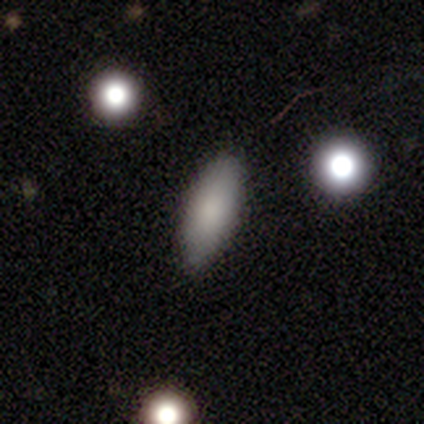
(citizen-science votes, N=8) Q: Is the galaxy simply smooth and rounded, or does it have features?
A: smooth — 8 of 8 (100%).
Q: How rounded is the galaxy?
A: in between — 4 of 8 (50%, tied with cigar-shaped).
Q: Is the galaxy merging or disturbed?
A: none — 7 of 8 (88%).